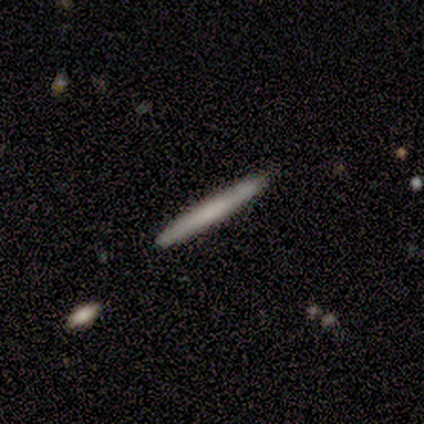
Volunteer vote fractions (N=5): Smooth or featured?
  - smooth: 60% *
  - featured or disk: 40%
  - star or artifact: 0%
How rounded?
  - cigar-shaped: 100% *
  - round: 0%
  - in between: 0%
Merging?
  - none: 100% *
  - minor disturbance: 0%
  - major disturbance: 0%
  - merger: 0%